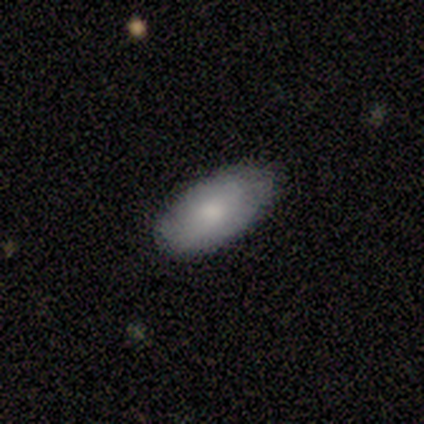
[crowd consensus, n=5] A smooth galaxy with no disk features (100%) that is in between round and cigar-shaped (100%). Merging: none (80%).